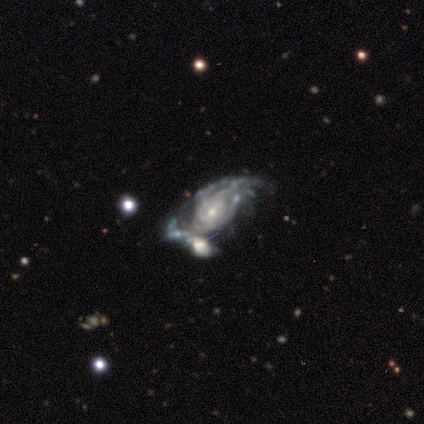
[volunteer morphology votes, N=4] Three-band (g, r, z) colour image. It shows a featured or disk galaxy (75%) with no bar (67%), tight (67%) spiral arms (100%) and a small central bulge (67%). Merging: minor disturbance (33%, tied with major disturbance and merger).